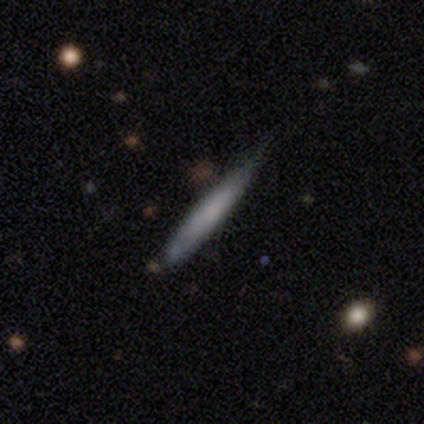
Smooth or featured? featured or disk (75%)
Edge-on disk? yes (100%)
Edge-on bulge? none (100%)
Merging? none (50%, tied with minor disturbance)